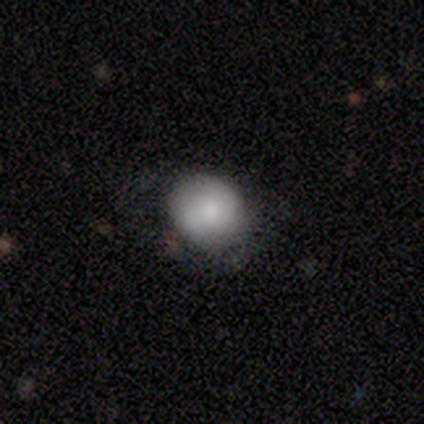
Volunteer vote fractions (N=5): A smooth galaxy with no disk features (60%) that is round (67%). Merging: none (50%).